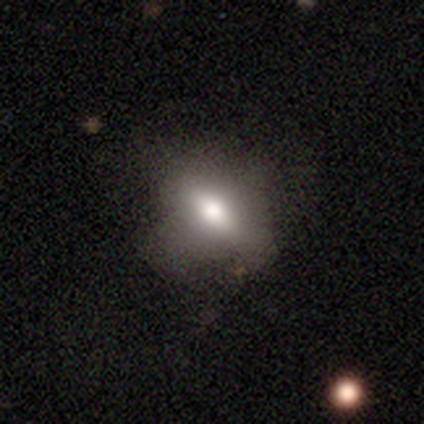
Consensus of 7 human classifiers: Overall: smooth (43%, tied with featured or disk). How rounded: in between (67%; round 33%). Merging: none (100%).